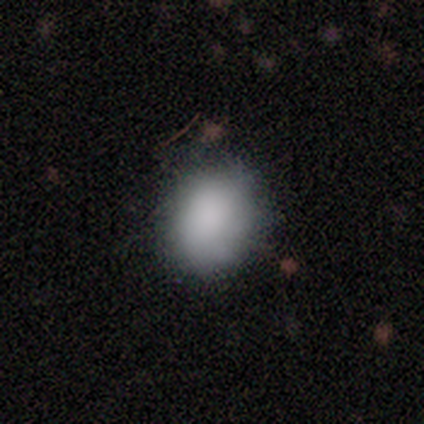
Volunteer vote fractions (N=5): Morphology: type=smooth (100%); roundness=round (60%); merging=none (60%).